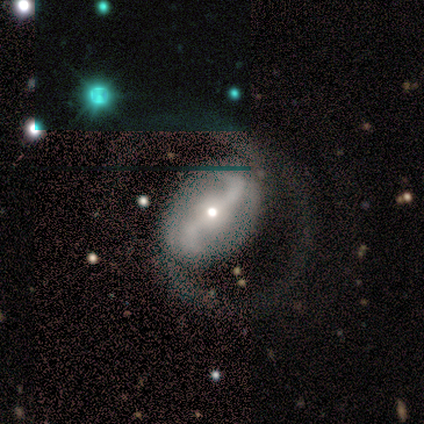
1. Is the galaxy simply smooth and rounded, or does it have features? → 100% featured or disk, 0% smooth, 0% star or artifact.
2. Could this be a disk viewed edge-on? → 100% no, 0% yes.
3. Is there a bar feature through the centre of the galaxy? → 67% no, 33% strong, 0% weak.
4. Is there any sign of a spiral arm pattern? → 100% yes, 0% no.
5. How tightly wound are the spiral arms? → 67% medium, 33% loose, 0% tight.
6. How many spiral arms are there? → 100% 2, 0% 1, 0% 3, 0% 4, 0% more than 4, 0% can't tell.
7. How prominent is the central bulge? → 33% large (tied), 33% moderate (tied), 33% small (tied), 0% dominant, 0% none.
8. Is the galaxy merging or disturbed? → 100% none, 0% minor disturbance, 0% major disturbance, 0% merger.